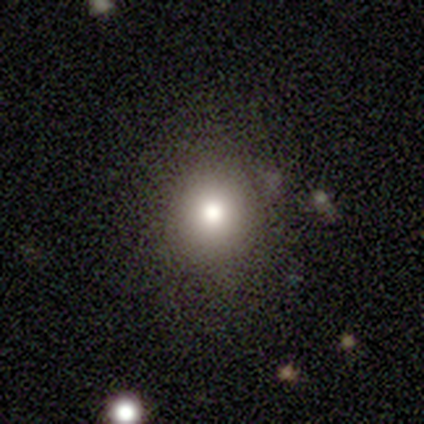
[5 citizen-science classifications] A smooth galaxy with no disk features (60%) that is round (67%).

Vote fractions:
- Smooth or featured? smooth: 60% / featured or disk: 20% / star or artifact: 20%
- How rounded? round: 67% / in between: 33% / cigar-shaped: 0%
- Merging? none: 75% / minor disturbance: 25% / major disturbance: 0% / merger: 0%